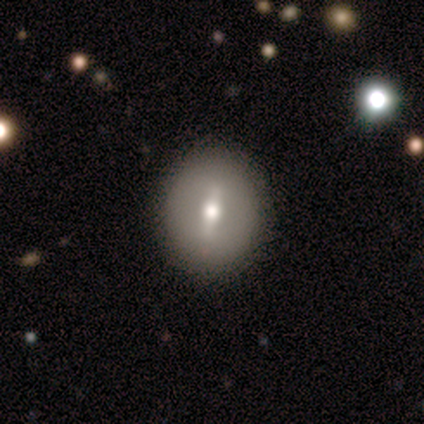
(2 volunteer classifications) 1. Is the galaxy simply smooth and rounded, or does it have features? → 100% smooth, 0% featured or disk, 0% star or artifact.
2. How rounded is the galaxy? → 50% round (tied), 50% in between (tied), 0% cigar-shaped.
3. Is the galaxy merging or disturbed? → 50% none (tied), 50% merger (tied), 0% minor disturbance, 0% major disturbance.